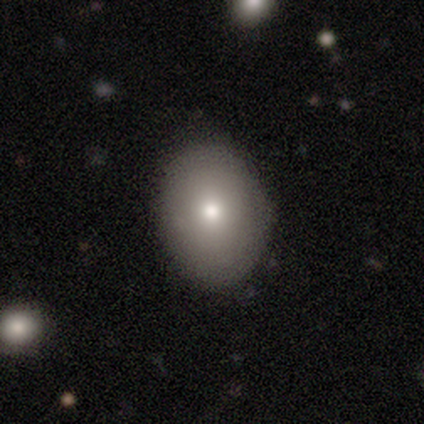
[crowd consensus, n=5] Smooth or featured? 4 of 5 (80%) said smooth. How rounded? 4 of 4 (100%) said in between. Merging? 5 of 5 (100%) said none.